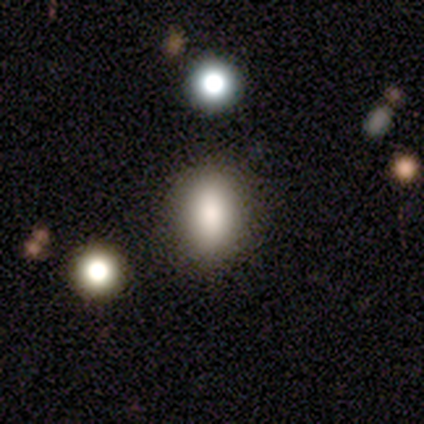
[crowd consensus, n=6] Smooth or featured? 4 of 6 (67%) said smooth. How rounded? 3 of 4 (75%) said in between. Merging? 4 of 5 (80%) said none.